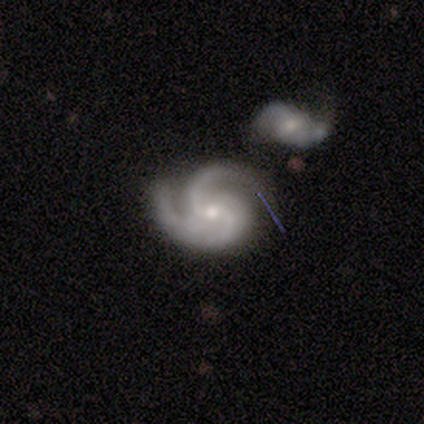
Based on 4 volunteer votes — A featured or disk galaxy (100%) with a weak bar (75%), 2 (50%) tight (50%) spiral arms (100%) and a moderate central bulge (50%, tied with small). Merging: none (50%, tied with major disturbance).